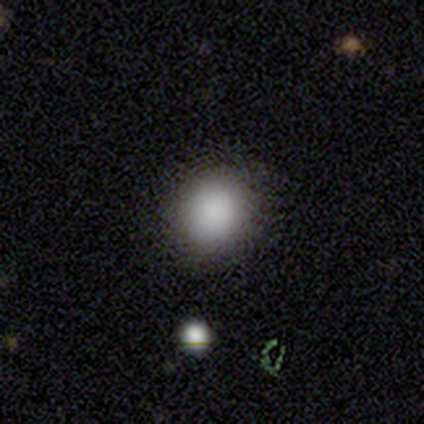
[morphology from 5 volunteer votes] This is clearly a smooth galaxy (100%). How rounded: likely round (60%). Merging: clearly none (100%).